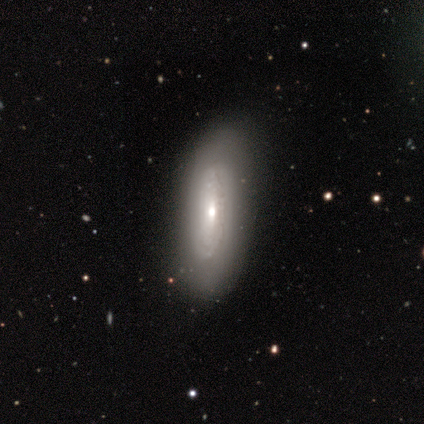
Q: Smooth or featured?
A: featured or disk (80%); runner-up: smooth (20%)
Q: Edge-on disk?
A: no (100%)
Q: Bar?
A: no (100%)
Q: Spiral arms?
A: yes (100%)
Q: Spiral winding?
A: tight (100%)
Q: Spiral arm count?
A: can't tell (100%)
Q: Bulge size?
A: moderate (50%); tied with: small (50%)
Q: Merging?
A: none (80%); runner-up: minor disturbance (20%)